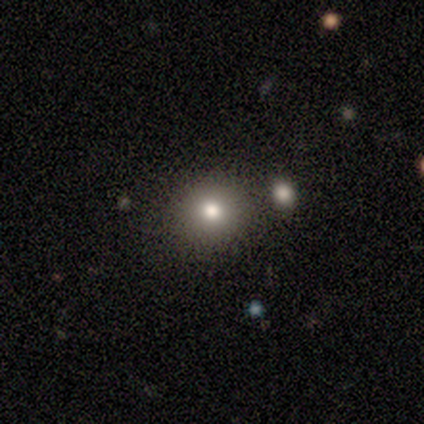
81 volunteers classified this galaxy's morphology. Overall: smooth (70%). How rounded: round (95%). Merging: none (88%).